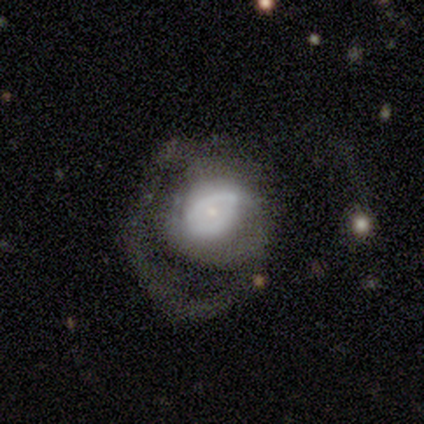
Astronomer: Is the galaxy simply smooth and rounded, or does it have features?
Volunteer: featured or disk — 74%.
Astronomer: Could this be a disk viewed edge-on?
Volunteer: no — 100%.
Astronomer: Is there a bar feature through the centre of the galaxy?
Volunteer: no — 76%.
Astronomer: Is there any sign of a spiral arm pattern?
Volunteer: yes — 55% (runner-up: no, 45%).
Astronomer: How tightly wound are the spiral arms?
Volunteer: tight — 44% (runner-up: medium, 31%).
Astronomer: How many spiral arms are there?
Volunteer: can't tell — 44% (runner-up: 1, 31%).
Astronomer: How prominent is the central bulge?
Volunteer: small — 66%.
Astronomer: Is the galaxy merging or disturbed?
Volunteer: major disturbance — 62%.